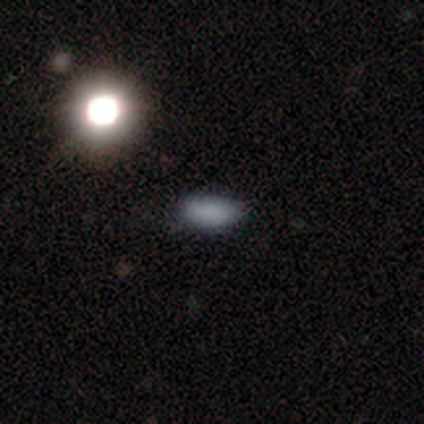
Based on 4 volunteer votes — smooth-or-featured: smooth: 75% | star or artifact: 25% | featured or disk: 0%
  how-rounded: in between: 67% | cigar-shaped: 33% | round: 0%
  merging: none: 67% | minor disturbance: 33% | major disturbance: 0% | merger: 0%